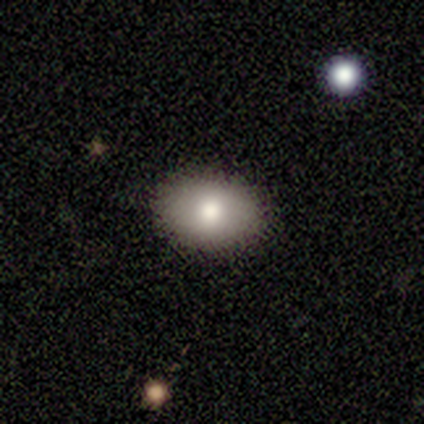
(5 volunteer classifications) smooth 60%, featured or disk 20%, star or artifact 20%. Down the decision tree: how rounded — in between (67%); merging — none (75%).